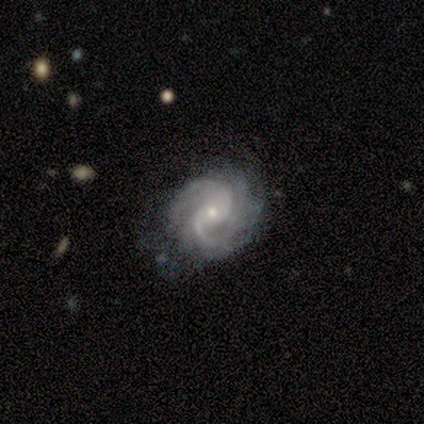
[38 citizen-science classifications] Q: Smooth or featured?
A: featured or disk (92%); runner-up: star or artifact (5%)
Q: Edge-on disk?
A: no (100%)
Q: Bar?
A: no (60%); runner-up: weak (40%)
Q: Spiral arms?
A: yes (97%); runner-up: no (3%)
Q: Spiral winding?
A: medium (53%); runner-up: tight (35%)
Q: Spiral arm count?
A: 2 (68%); runner-up: 3 (21%)
Q: Bulge size?
A: small (69%); runner-up: moderate (29%)
Q: Merging?
A: none (44%); runner-up: minor disturbance (36%)